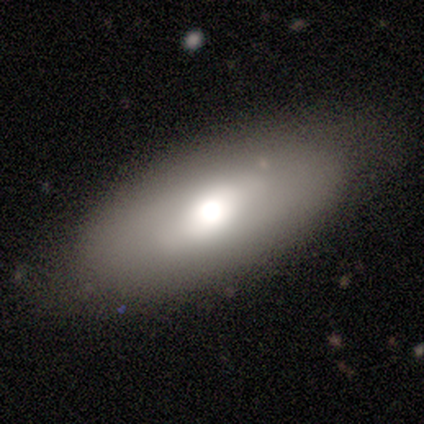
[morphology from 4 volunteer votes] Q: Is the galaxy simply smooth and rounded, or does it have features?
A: smooth — 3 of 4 (75%).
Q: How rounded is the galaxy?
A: in between — 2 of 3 (67%).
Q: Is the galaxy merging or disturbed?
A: none — 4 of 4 (100%).